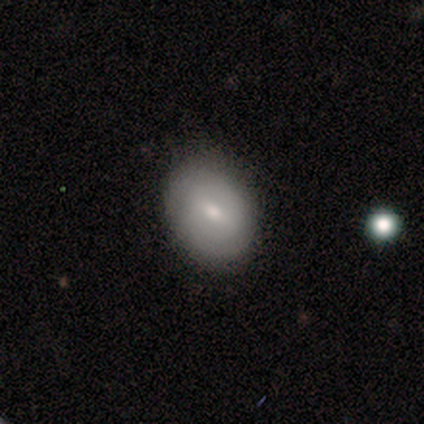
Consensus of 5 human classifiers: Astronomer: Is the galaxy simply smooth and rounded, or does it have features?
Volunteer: featured or disk — 60% (runner-up: smooth, 40%).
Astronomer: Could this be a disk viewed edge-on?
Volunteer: no — 100%.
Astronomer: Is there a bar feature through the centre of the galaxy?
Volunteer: weak — 100%.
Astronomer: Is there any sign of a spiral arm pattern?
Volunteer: yes — 67%.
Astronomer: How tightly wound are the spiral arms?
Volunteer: tight — 100%.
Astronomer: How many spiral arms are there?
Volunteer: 2 — 50%, tied with 3 at 50%.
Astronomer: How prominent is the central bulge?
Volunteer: small — 67%.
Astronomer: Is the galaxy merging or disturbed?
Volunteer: none — 60% (runner-up: minor disturbance, 40%).